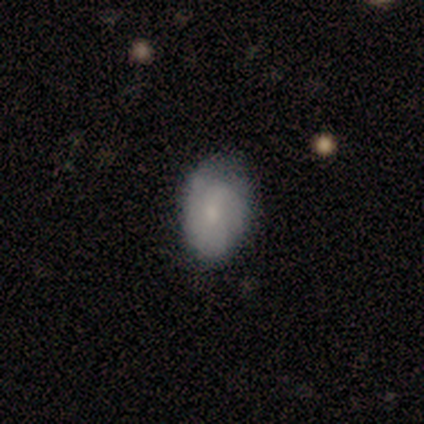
Smooth or featured?
  - featured or disk: 60% *
  - smooth: 40%
  - star or artifact: 0%
Edge-on disk?
  - no: 100% *
  - yes: 0%
Bar?
  - weak: 100% *
  - strong: 0%
  - no: 0%
Spiral arms?
  - yes: 67% *
  - no: 33%
Spiral winding?
  - tight: 50% * (tied)
  - medium: 50% * (tied)
  - loose: 0%
Spiral arm count?
  - can't tell: 100% *
  - 1: 0%
  - 2: 0%
  - 3: 0%
  - 4: 0%
  - more than 4: 0%
Bulge size?
  - small: 67% *
  - none: 33%
  - dominant: 0%
  - large: 0%
  - moderate: 0%
Merging?
  - none: 80% *
  - minor disturbance: 20%
  - major disturbance: 0%
  - merger: 0%